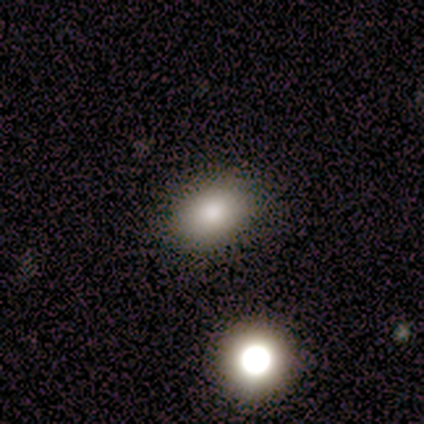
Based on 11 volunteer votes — A smooth galaxy with no disk features (82%) that is in between round and cigar-shaped (67%). Merging: none (70%).